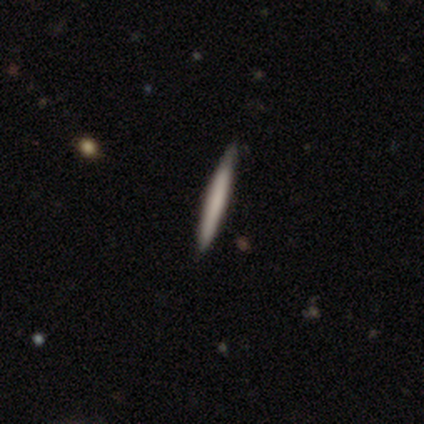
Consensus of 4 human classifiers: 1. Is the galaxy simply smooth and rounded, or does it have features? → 100% smooth, 0% featured or disk, 0% star or artifact.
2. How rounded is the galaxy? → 100% cigar-shaped, 0% round, 0% in between.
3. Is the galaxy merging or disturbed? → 75% none, 25% minor disturbance, 0% major disturbance, 0% merger.